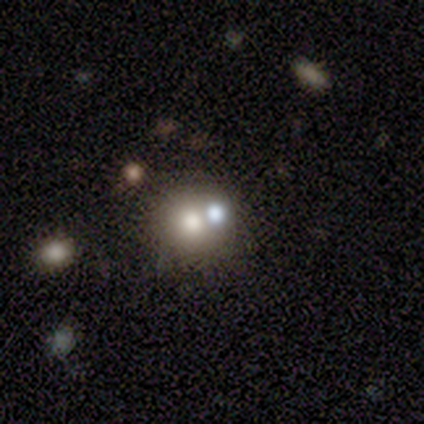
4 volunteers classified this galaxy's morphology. Smooth or featured? 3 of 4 (75%) said smooth. How rounded? 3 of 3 (100%) said round. Merging? 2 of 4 (50%) said none.